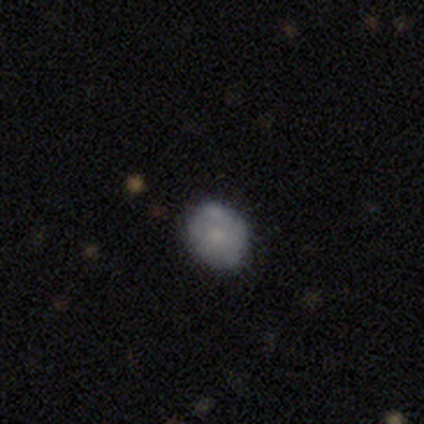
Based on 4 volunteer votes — Overall: smooth (100%). How rounded: round (100%). Merging: none (50%, tied with minor disturbance).